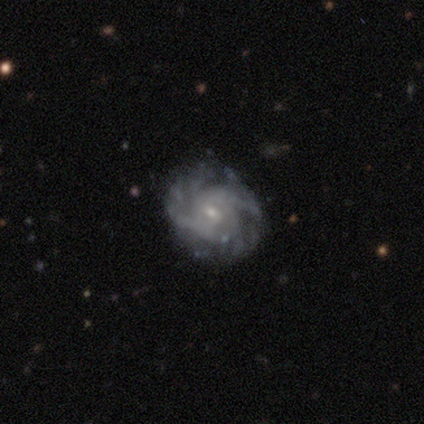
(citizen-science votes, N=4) A featured or disk galaxy (100%) with no bar (75%), 2 (50%) medium (50%) spiral arms (100%) and a small central bulge (75%).

Vote fractions:
- Smooth or featured? featured or disk: 100% / smooth: 0% / star or artifact: 0%
- Edge-on disk? no: 100% / yes: 0%
- Bar? no: 75% / weak: 25% / strong: 0%
- Spiral arms? yes: 100% / no: 0%
- Spiral winding? medium: 50% / tight: 25% / loose: 25%
- Spiral arm count? 2: 50% / 4: 25% / can't tell: 25% / 1: 0% / 3: 0% / more than 4: 0%
- Bulge size? small: 75% / moderate: 25% / dominant: 0% / large: 0% / none: 0%
- Merging? none: 50% / minor disturbance: 25% / major disturbance: 25% / merger: 0%